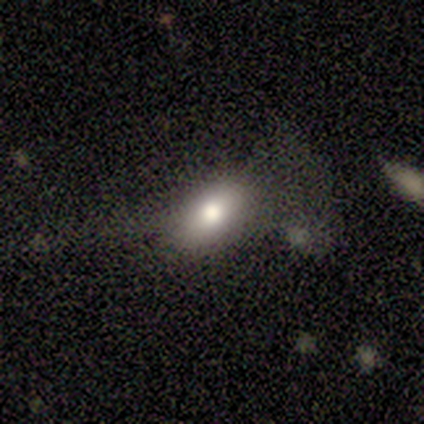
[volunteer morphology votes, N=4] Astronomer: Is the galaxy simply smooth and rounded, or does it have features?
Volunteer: smooth — 75%.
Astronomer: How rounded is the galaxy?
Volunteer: in between — 100%.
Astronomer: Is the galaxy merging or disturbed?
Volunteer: none — 100%.